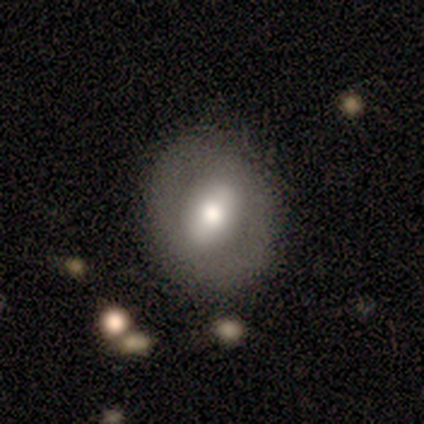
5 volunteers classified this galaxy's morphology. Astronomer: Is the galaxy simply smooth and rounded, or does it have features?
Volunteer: smooth — 80%.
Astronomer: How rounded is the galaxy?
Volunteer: round — 100%.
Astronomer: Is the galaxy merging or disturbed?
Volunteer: none — 80%.